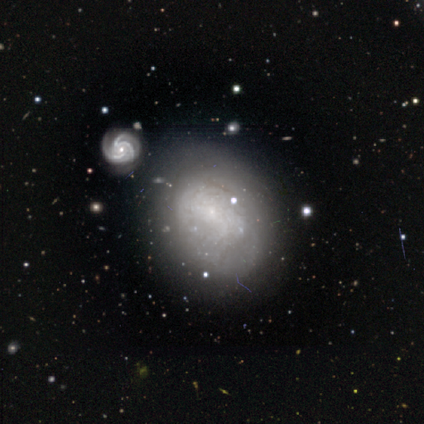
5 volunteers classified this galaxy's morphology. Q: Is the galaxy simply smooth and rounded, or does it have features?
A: featured or disk — 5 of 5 (100%).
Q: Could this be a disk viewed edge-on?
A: no — 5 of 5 (100%).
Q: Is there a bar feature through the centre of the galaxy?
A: no — 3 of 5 (60%).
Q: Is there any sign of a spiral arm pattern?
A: yes — 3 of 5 (60%).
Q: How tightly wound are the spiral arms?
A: medium — 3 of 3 (100%).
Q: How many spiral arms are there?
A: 2 — 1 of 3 (33%, tied with 3 and can't tell).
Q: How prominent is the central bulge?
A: small — 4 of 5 (80%).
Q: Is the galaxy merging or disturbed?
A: none — 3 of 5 (60%).